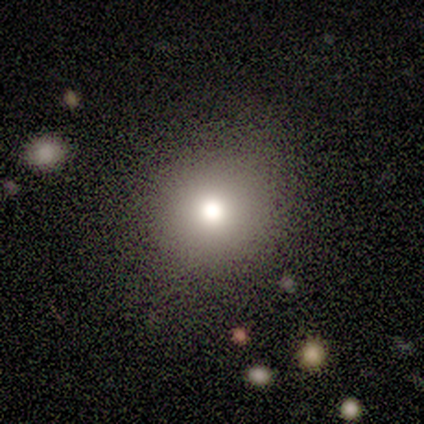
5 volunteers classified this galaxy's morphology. Smooth or featured: smooth — 80% (star or artifact — 20%)
How rounded: round — 75% (in between — 25%)
Merging: none — 100%